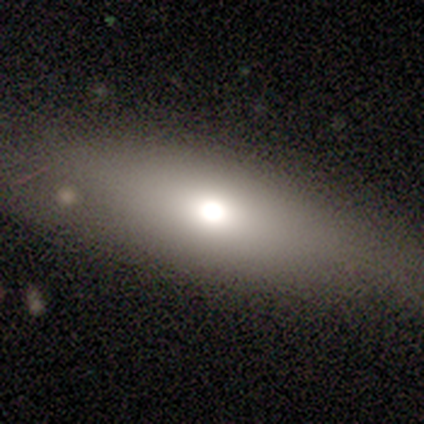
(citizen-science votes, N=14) Overall: smooth (79%). How rounded: in between (55%; cigar-shaped 45%). Merging: none (86%).